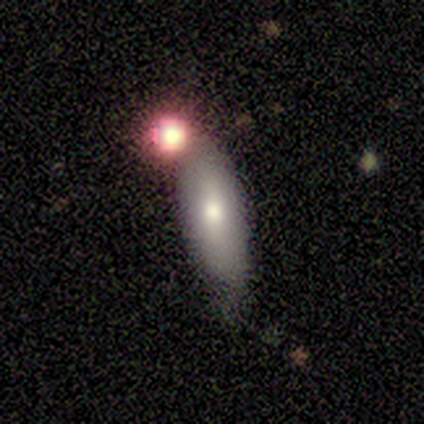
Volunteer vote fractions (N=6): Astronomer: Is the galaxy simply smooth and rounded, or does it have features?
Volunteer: smooth — 67%.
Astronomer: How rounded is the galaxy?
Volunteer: in between — 50%, tied with cigar-shaped at 50%.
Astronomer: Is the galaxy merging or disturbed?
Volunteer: none — 75%.